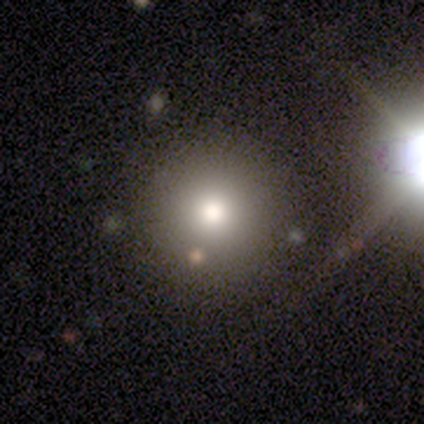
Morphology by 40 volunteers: A smooth galaxy with no disk features (78%) that is round (97%).

Vote fractions:
- Smooth or featured? smooth: 78% / star or artifact: 20% / featured or disk: 2%
- How rounded? round: 97% / in between: 3% / cigar-shaped: 0%
- Merging? none: 94% / merger: 6% / minor disturbance: 0% / major disturbance: 0%